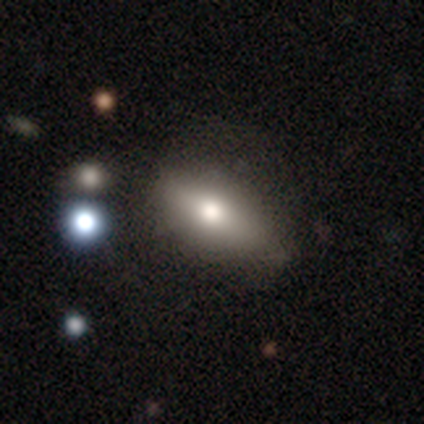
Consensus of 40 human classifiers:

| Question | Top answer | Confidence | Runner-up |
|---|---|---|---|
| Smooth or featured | smooth | 75% | featured or disk (20%) |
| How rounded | in between | 73% | cigar-shaped (27%) |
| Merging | none | 68% | minor disturbance (18%) |